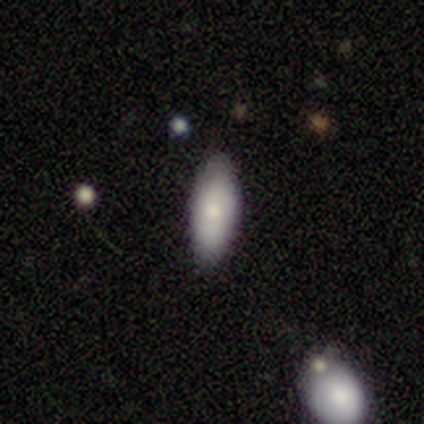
smooth_or_featured: smooth (p=0.75) [alt: featured or disk p=0.25]
how_rounded: in between (p=1.00)
merging: none (p=0.50) [alt: minor disturbance p=0.25]